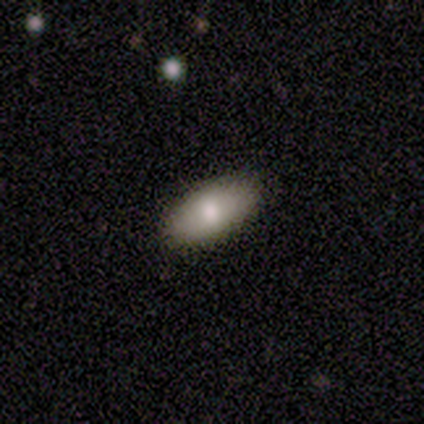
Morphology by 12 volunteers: Smooth or featured? smooth (92%)
How rounded? in between (91%)
Merging? none (83%)